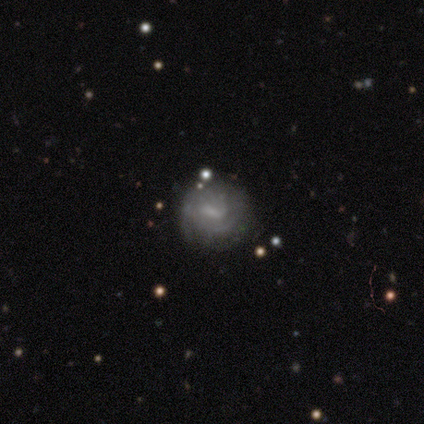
Smooth or featured: featured or disk — 67% (smooth — 31%)
Edge-on disk: no — 96% (yes — 4%)
Bar: weak — 76% (strong — 12%)
Spiral arms: yes — 84% (no — 16%)
Spiral winding: tight — 52% (medium — 29%)
Spiral arm count: 2 — 43% (can't tell — 33%)
Bulge size: small — 56% (none — 28%)
Merging: none — 76% (minor disturbance — 21%)